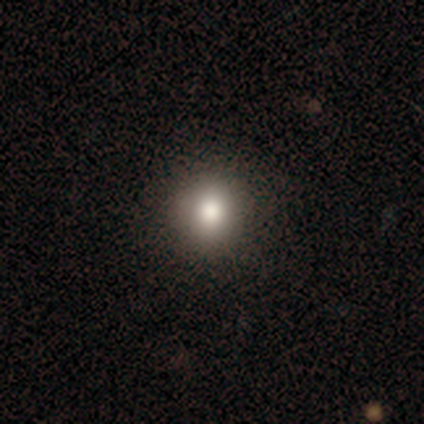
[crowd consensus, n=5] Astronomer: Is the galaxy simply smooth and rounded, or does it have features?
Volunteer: smooth — 80%.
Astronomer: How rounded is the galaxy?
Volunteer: round — 100%.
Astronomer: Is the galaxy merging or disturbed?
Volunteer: none — 60% (runner-up: minor disturbance, 40%).